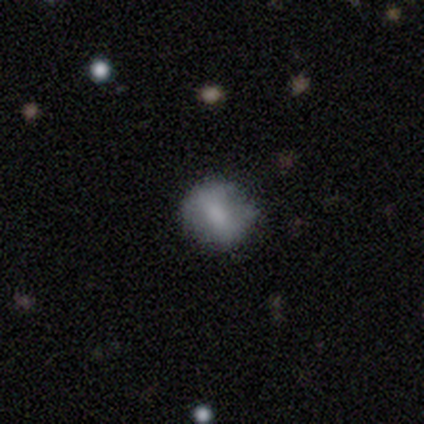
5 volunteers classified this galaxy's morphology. This is likely a smooth galaxy (60%). How rounded: clearly round (100%). Merging: clearly none (100%).